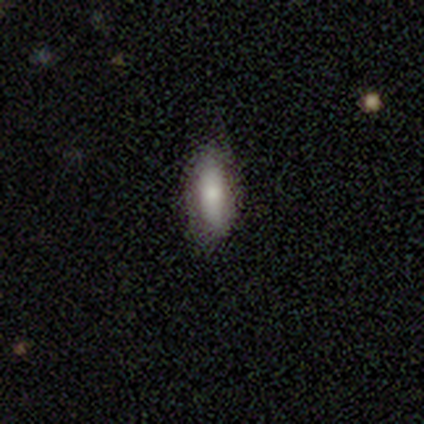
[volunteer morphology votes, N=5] A smooth galaxy with no disk features (80%) that is cigar-shaped (75%). Merging: none (100%).